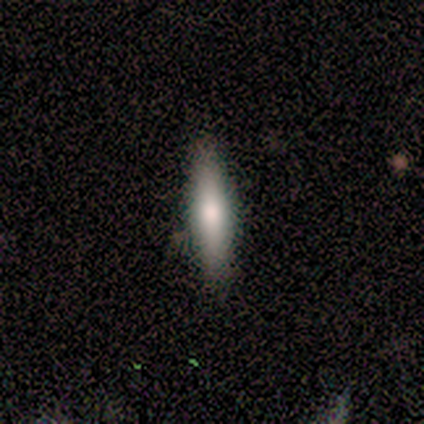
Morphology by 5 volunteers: Smooth or featured? 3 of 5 (60%) said featured or disk. Edge-on disk? 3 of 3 (100%) said yes. Edge-on bulge? 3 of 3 (100%) said rounded. Merging? 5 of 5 (100%) said none.